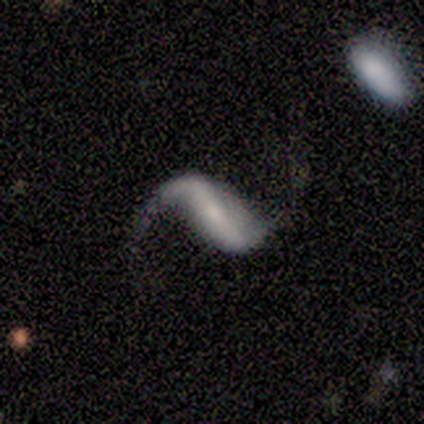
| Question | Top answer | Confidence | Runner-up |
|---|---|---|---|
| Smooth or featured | featured or disk | 80% | smooth (20%) |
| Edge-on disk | no | 100% | — |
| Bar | strong | 50% | weak (25%) |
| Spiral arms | yes | 75% | no (25%) |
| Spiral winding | loose | 100% | — |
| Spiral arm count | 2 | 100% | — |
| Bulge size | small | 75% | moderate (25%) |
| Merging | none | 40% | tied: minor disturbance (40%) |